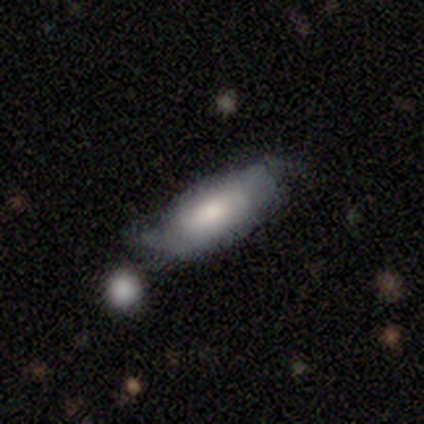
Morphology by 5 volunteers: Overall: smooth (60%; featured or disk 40%). How rounded: in between (100%). Merging: none (80%).